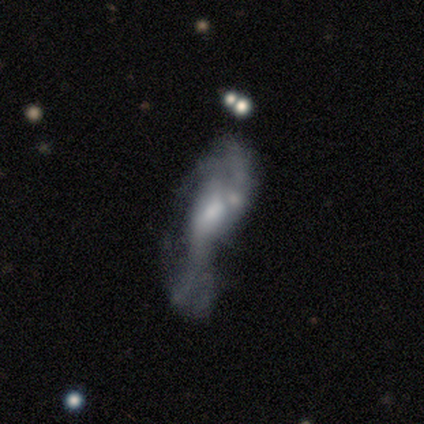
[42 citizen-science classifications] smooth_or_featured: featured or disk (p=0.71) [alt: smooth p=0.24]
disk_edge_on: no (p=0.83) [alt: yes p=0.17]
bar: no (p=0.68) [alt: weak p=0.24]
has_spiral_arms: no (p=0.56) [alt: yes p=0.44]
bulge_size: none (p=0.36) [alt: moderate p=0.32]
merging: major disturbance (p=0.45) [alt: merger p=0.30]